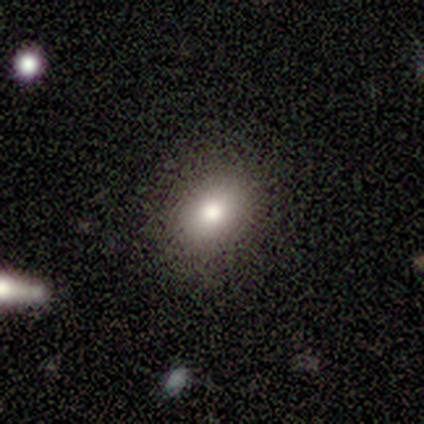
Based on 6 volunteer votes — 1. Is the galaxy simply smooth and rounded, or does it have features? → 83% smooth, 17% featured or disk, 0% star or artifact.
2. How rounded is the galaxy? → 60% round, 40% in between, 0% cigar-shaped.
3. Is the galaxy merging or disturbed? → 83% none, 17% minor disturbance, 0% major disturbance, 0% merger.